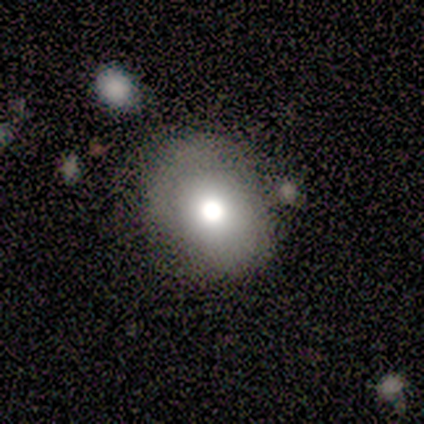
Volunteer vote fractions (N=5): This is clearly a smooth galaxy (80%). How rounded: possibly round (50%, tied with in between). Merging: possibly none (50%, tied with minor disturbance).